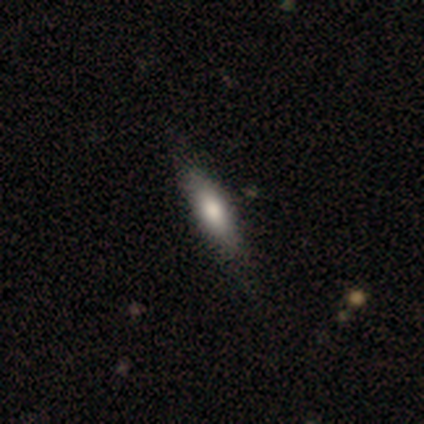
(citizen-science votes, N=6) smooth-or-featured: smooth: 83% | featured or disk: 17% | star or artifact: 0%
  how-rounded: cigar-shaped: 100% | round: 0% | in between: 0%
  merging: none: 100% | minor disturbance: 0% | major disturbance: 0% | merger: 0%